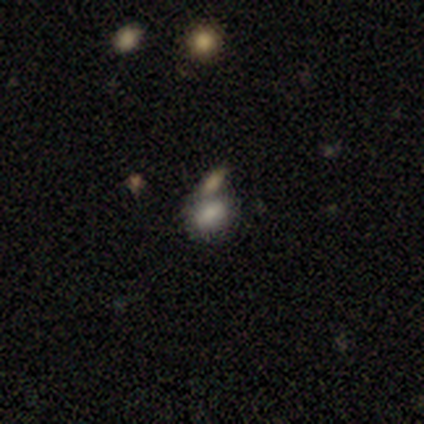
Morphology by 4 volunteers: Q: Smooth or featured?
A: smooth (75%); runner-up: featured or disk (25%)
Q: How rounded?
A: in between (100%)
Q: Merging?
A: none (75%); runner-up: merger (25%)